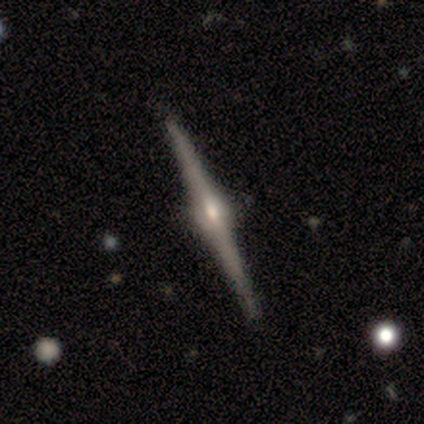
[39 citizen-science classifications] featured or disk 92%, star or artifact 5%, smooth 3%. Down the decision tree: edge-on disk — yes (100%); edge-on bulge — rounded (86%); merging — none (78%).